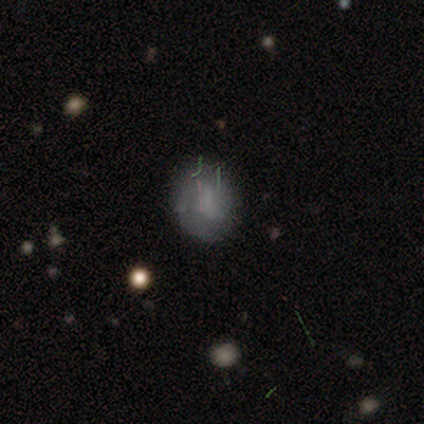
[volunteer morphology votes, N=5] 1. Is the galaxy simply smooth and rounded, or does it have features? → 40% smooth (tied), 40% featured or disk (tied), 20% star or artifact.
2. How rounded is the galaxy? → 50% round (tied), 50% in between (tied), 0% cigar-shaped.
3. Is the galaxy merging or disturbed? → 50% none (tied), 50% minor disturbance (tied), 0% major disturbance, 0% merger.